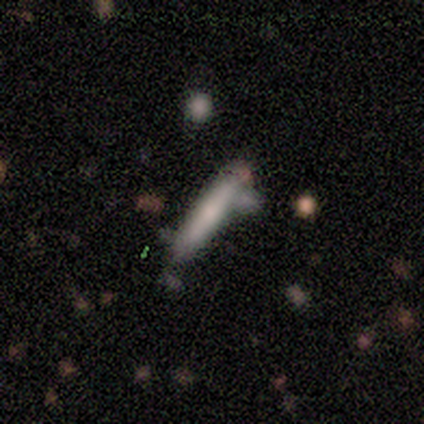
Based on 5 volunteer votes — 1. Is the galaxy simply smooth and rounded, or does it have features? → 100% smooth, 0% featured or disk, 0% star or artifact.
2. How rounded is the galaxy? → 100% cigar-shaped, 0% round, 0% in between.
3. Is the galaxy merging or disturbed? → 60% minor disturbance, 40% none, 0% major disturbance, 0% merger.